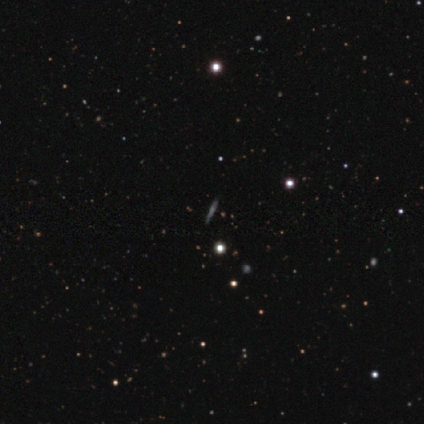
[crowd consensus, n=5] Smooth or featured? 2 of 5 (40%, tied with star or artifact) said featured or disk. Edge-on disk? 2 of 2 (100%) said yes. Edge-on bulge? 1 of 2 (50%, tied with rounded) said none. Merging? 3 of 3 (100%) said none.